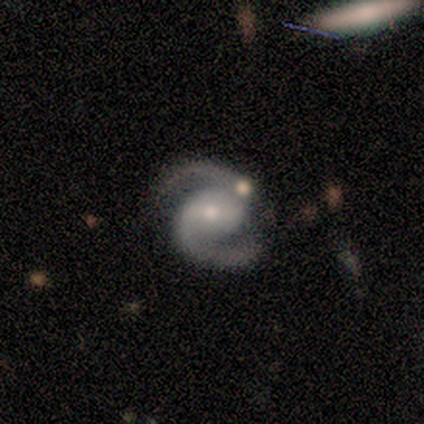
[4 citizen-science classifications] This is likely a featured or disk galaxy (75%). It is clearly not viewed edge-on (100%). Bar: likely weak (67%). Spiral arm pattern: clearly yes (100%). Spiral arm count: clearly 2 (100%). Spiral winding: clearly medium (100%). Central bulge: clearly small (100%). Merging: possibly none (50%, tied with minor disturbance).